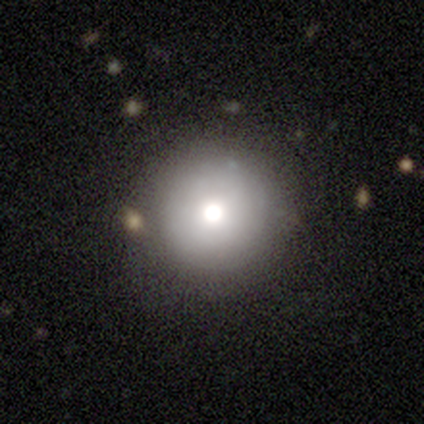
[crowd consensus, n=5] Smooth or featured: smooth — 40% (tied with star or artifact — 40%)
How rounded: round — 100%
Merging: minor disturbance — 67% (none — 33%)